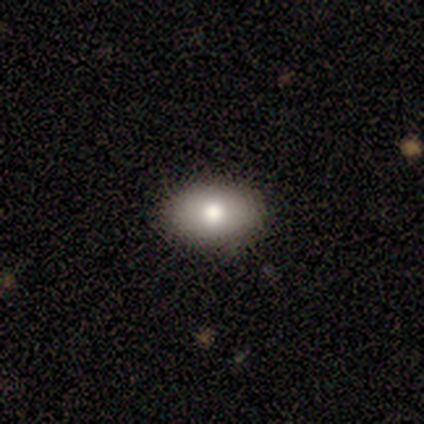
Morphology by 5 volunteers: This appears to be a smooth galaxy with no disk features (80%) that is in between round and cigar-shaped (100%). Merging: none (100%).